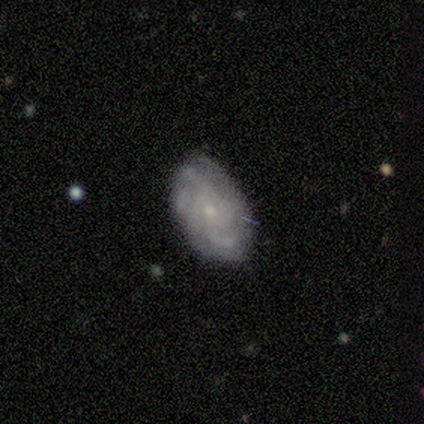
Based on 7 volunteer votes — Smooth or featured? 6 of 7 (86%) said featured or disk. Edge-on disk? 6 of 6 (100%) said no. Bar? 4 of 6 (67%) said no. Spiral arms? 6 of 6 (100%) said yes. Spiral winding? 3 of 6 (50%) said medium. Spiral arm count? 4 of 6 (67%) said 2. Bulge size? 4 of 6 (67%) said small. Merging? 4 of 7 (57%) said none.